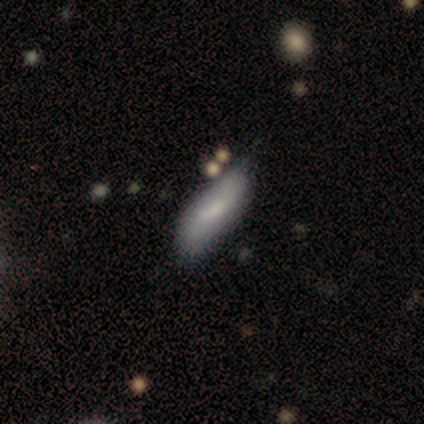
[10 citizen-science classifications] Smooth or featured: featured or disk — 50% (smooth — 40%)
Edge-on disk: no — 60% (yes — 40%)
Bar: strong — 33% (tied with weak — 33%; no — 33%)
Spiral arms: yes — 67% (no — 33%)
Spiral winding: loose — 100%
Spiral arm count: 2 — 100%
Bulge size: none — 67% (small — 33%)
Merging: none — 67% (minor disturbance — 33%)